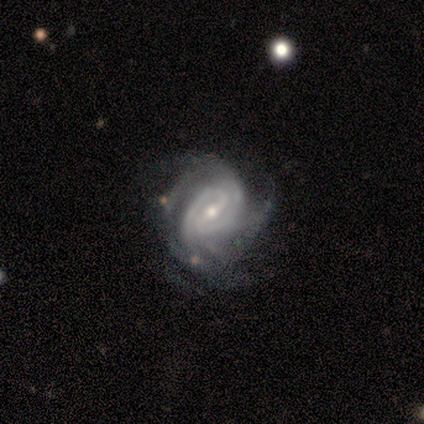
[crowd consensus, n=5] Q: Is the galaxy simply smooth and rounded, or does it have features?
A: featured or disk — 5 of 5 (100%).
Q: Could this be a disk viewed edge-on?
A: no — 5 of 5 (100%).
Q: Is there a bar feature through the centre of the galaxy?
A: weak — 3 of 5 (60%).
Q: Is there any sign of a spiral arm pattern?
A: yes — 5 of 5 (100%).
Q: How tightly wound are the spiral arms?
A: tight — 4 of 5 (80%).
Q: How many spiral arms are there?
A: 2 — 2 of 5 (40%, tied with can't tell).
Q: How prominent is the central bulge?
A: small — 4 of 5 (80%).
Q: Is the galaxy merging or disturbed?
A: none — 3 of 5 (60%).